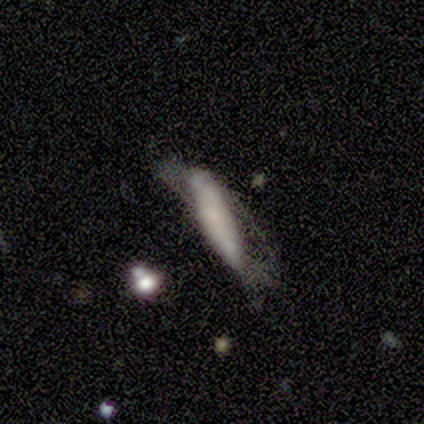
This appears to be a smooth galaxy with no disk features (60%) that is cigar-shaped (67%). Merging: none (40%, tied with major disturbance).